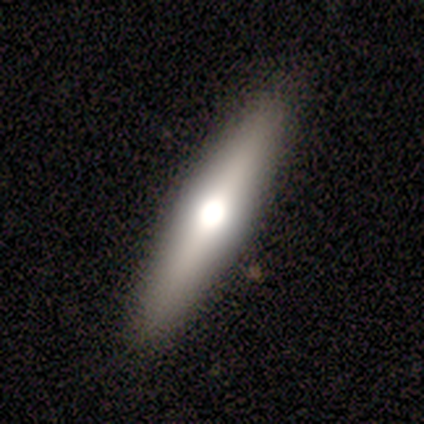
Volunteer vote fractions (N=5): featured or disk 60%, star or artifact 40%, smooth 0%. Down the decision tree: edge-on disk — yes (100%); edge-on bulge — rounded (67%); merging — none (100%).